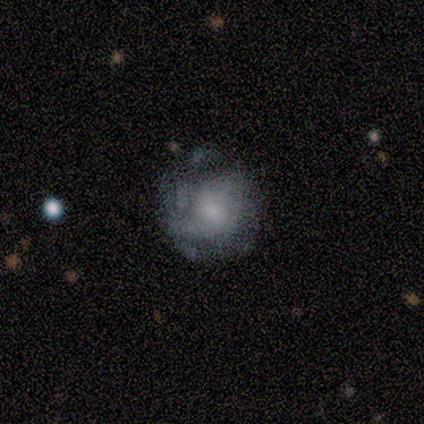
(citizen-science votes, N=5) Morphology: type=featured or disk (80%); edge-on=no (100%); bar=weak (50%, tied with no); spiral arms=yes (50%, tied with no); winding=medium (50%, tied with loose); arm count=1 (50%, tied with 2); bulge=moderate (100%); merging=none (40%, tied with minor disturbance).